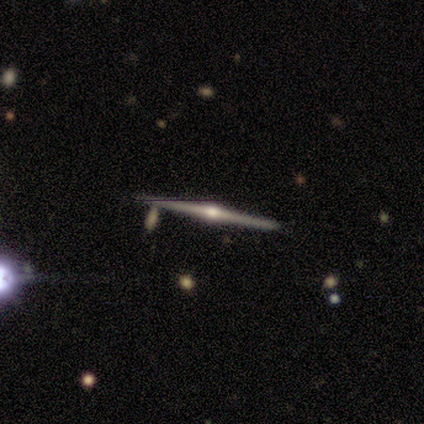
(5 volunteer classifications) featured or disk 100%, smooth 0%, star or artifact 0%. Down the decision tree: edge-on disk — yes (100%); edge-on bulge — rounded (100%); merging — none (80%).